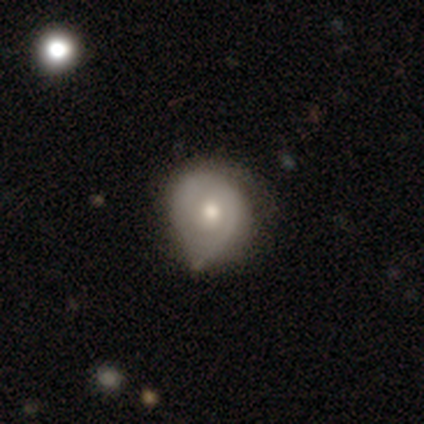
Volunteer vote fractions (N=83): Overall: featured or disk (54%; smooth 37%). Edge-on disk: no (96%). Bar: no (70%; weak 30%). Spiral arms: yes (72%). Spiral arm count: can't tell (42%; 2 39%). Spiral winding: tight (48%; medium 39%). Bulge size: moderate (63%; small 23%). Merging: minor disturbance (43%; none 41%).